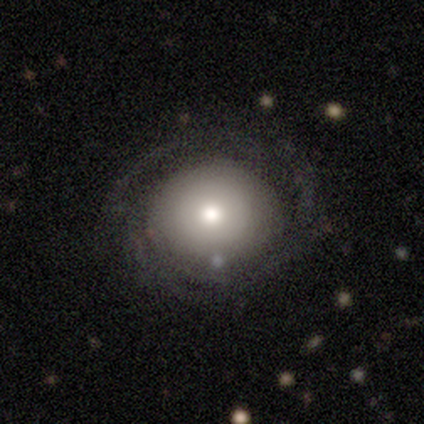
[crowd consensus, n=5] This is clearly a featured or disk galaxy (80%). It is clearly not viewed edge-on (100%). Bar: clearly no (100%). Spiral arm pattern: clearly yes (100%). Spiral arm count: possibly can't tell (50%). Spiral winding: clearly tight (100%). Central bulge: likely moderate (75%). Merging: clearly none (80%).